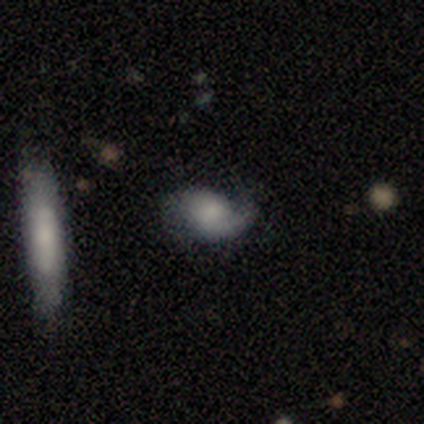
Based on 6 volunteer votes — Smooth or featured? 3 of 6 (50%, tied with featured or disk) said smooth. How rounded? 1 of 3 (33%, tied with in between and cigar-shaped) said round. Merging? 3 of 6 (50%) said none.